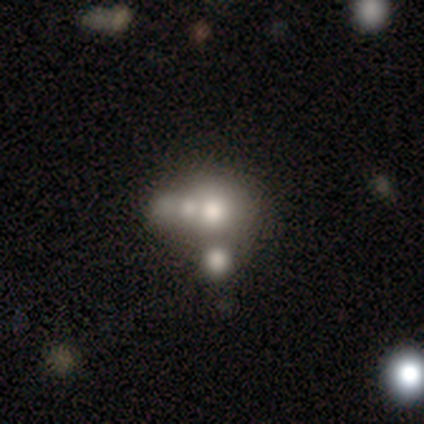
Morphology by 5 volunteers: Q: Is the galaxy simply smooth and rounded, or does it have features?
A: smooth — 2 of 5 (40%, tied with star or artifact).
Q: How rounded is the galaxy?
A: round — 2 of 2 (100%).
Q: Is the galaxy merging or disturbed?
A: merger — 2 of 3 (67%).